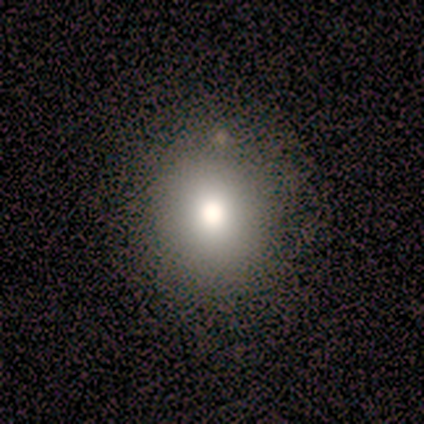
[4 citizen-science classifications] smooth-or-featured: smooth: 75% | star or artifact: 25% | featured or disk: 0%
  how-rounded: round: 100% | in between: 0% | cigar-shaped: 0%
  merging: none: 100% | minor disturbance: 0% | major disturbance: 0% | merger: 0%